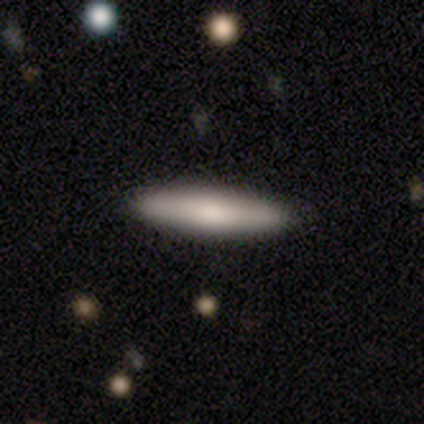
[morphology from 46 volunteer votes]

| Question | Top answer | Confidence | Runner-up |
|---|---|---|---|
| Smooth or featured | smooth | 78% | featured or disk (22%) |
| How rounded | cigar-shaped | 81% | in between (19%) |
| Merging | none | 85% | minor disturbance (11%) |